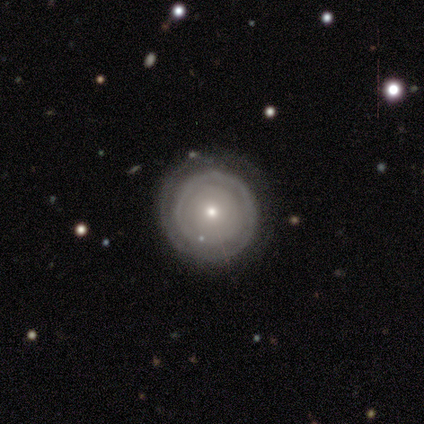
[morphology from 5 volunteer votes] Smooth or featured? 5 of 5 (100%) said featured or disk. Edge-on disk? 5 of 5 (100%) said no. Bar? 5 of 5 (100%) said no. Spiral arms? 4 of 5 (80%) said yes. Spiral winding? 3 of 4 (75%) said tight. Spiral arm count? 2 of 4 (50%, tied with can't tell) said 1. Bulge size? 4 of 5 (80%) said small. Merging? 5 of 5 (100%) said none.